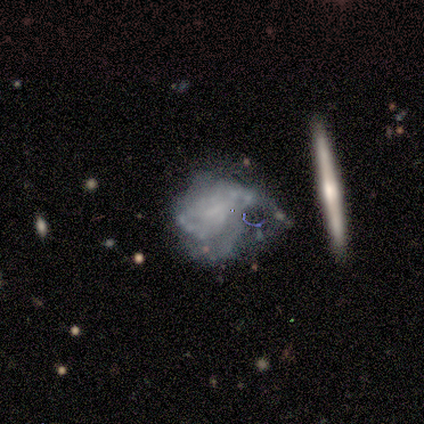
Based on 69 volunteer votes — smooth_or_featured: featured or disk (p=0.83) [alt: smooth p=0.14]
disk_edge_on: no (p=0.93) [alt: yes p=0.07]
bar: no (p=0.72) [alt: weak p=0.23]
has_spiral_arms: yes (p=0.58) [alt: no p=0.42]
spiral_winding: tight (p=0.48) [alt: medium p=0.26]
spiral_arm_count: can't tell (p=0.68) [alt: 2 p=0.13]
bulge_size: none (p=0.77) [alt: small p=0.17]
merging: major disturbance (p=0.46) [alt: minor disturbance p=0.24]